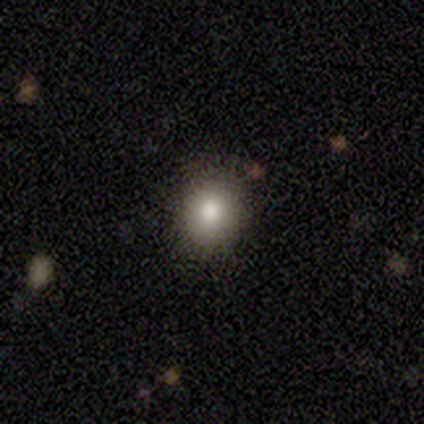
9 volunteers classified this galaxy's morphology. A smooth galaxy with no disk features (100%) that is round (78%). Merging: none (89%).